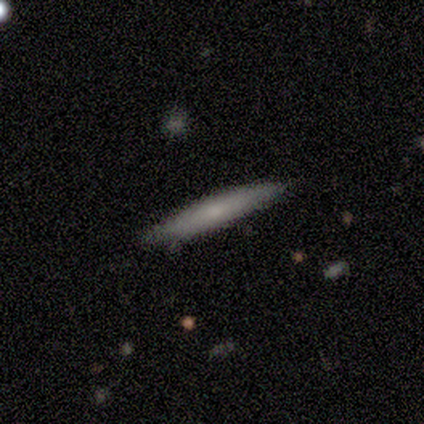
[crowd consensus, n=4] Smooth or featured: smooth — 75% (featured or disk — 25%)
How rounded: cigar-shaped — 100%
Merging: none — 75% (minor disturbance — 25%)